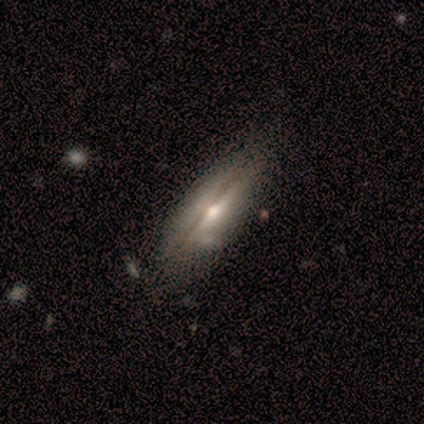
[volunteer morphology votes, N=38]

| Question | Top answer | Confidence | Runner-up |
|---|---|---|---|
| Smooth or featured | featured or disk | 63% | smooth (37%) |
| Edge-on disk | yes | 88% | no (12%) |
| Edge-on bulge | rounded | 90% | boxy (10%) |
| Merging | none | 50% | merger (8%) |